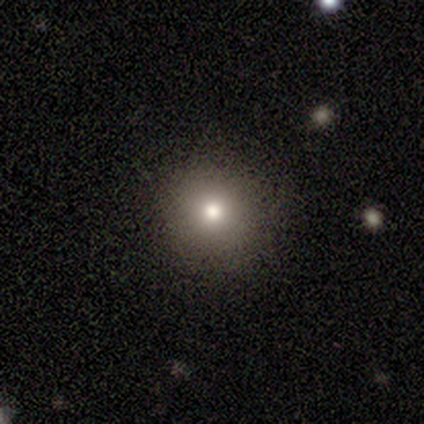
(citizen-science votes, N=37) Volunteers were most divided on "smooth or featured": smooth: 76%, featured or disk: 16%, star or artifact: 8%. More confident: how rounded — round (100%); merging — none (88%).